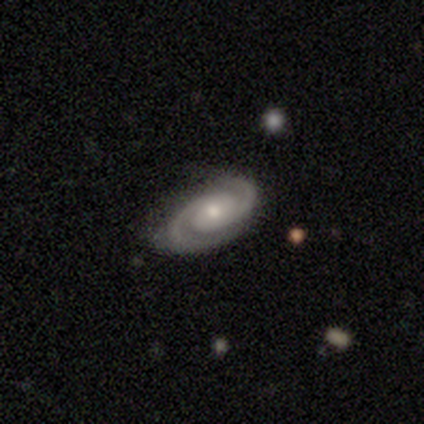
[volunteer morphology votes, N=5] This appears to be a featured or disk galaxy (100%) with no bar (80%), 2 (100%) medium (60%) spiral arms (100%) and a small central bulge (80%). Merging: none (80%).